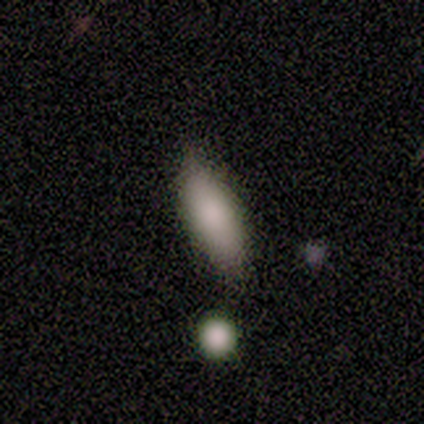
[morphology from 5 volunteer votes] Overall: smooth (80%). How rounded: in between (100%). Merging: none (60%; minor disturbance 40%).